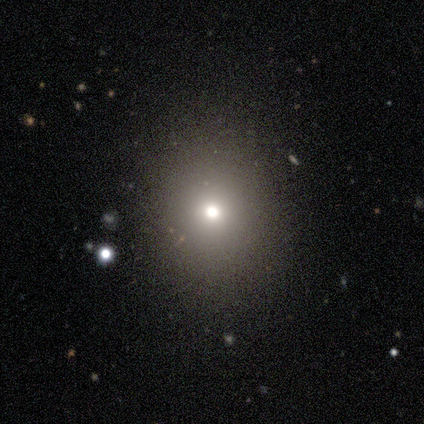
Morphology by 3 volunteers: type=smooth (100%); roundness=in between (67%); merging=none (67%).